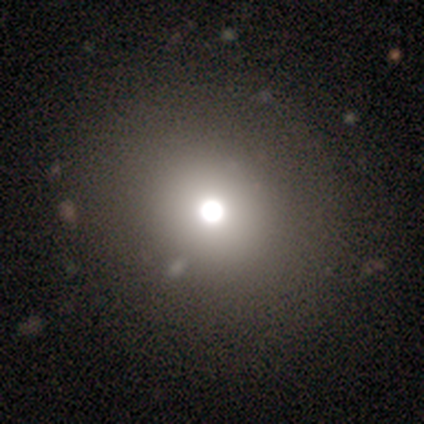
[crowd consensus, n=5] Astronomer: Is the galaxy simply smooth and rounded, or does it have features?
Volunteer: smooth — 80%.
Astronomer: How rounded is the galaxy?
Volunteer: round — 75%.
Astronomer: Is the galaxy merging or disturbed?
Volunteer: none — 50%.